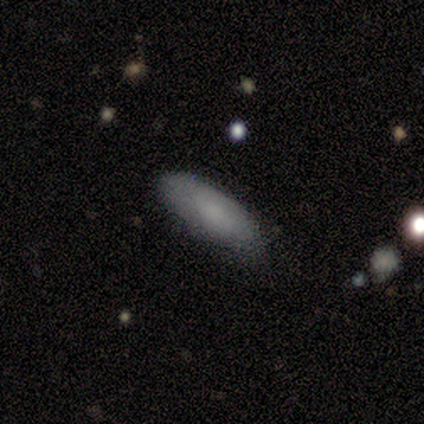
Overall: smooth (60%; featured or disk 20%). How rounded: in between (67%; cigar-shaped 33%). Merging: minor disturbance (100%).